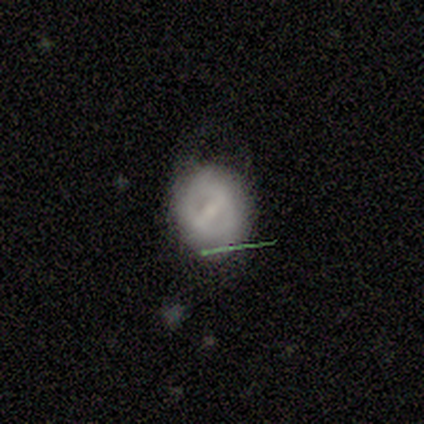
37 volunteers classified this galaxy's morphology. Volunteers were most divided on "smooth or featured" (2-way tie): smooth: 49%, featured or disk: 49%, star or artifact: 3%. More confident: how rounded — round (67%); merging — none (64%).